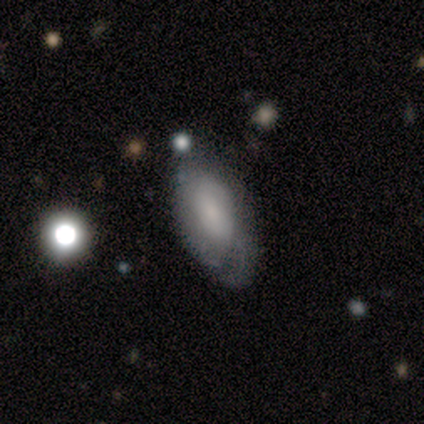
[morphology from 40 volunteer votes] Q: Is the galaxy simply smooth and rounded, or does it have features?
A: smooth — 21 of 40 (52%).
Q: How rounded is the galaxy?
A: in between — 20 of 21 (95%).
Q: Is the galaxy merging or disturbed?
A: none — 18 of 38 (47%).